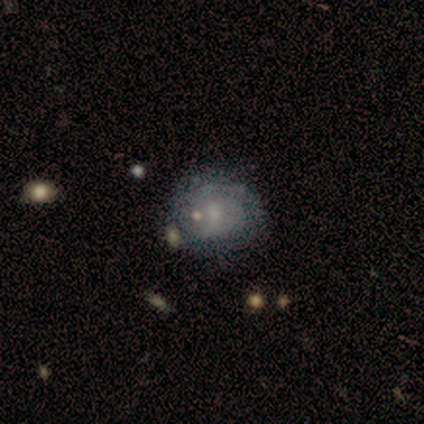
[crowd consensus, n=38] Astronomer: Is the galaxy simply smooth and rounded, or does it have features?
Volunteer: featured or disk — 71%.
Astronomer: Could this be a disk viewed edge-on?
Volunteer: no — 96%.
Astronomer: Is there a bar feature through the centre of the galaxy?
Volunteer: no — 69%.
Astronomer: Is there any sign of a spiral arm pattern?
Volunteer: yes — 81%.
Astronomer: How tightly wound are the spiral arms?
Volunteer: tight — 71%.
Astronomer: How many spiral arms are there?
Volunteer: can't tell — 67%.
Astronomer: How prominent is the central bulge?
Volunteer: small — 50%.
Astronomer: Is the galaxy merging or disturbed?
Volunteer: none — 66%.